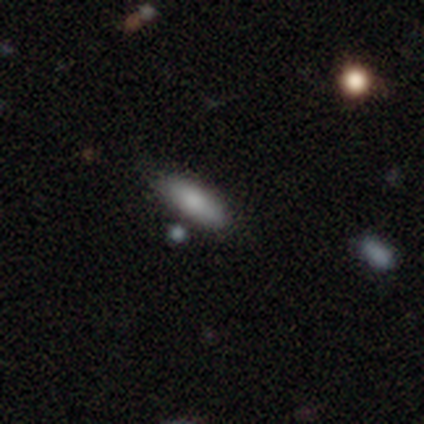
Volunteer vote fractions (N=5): Smooth or featured: smooth — 60% (featured or disk — 20%)
How rounded: in between — 67% (cigar-shaped — 33%)
Merging: none — 75% (minor disturbance — 25%)